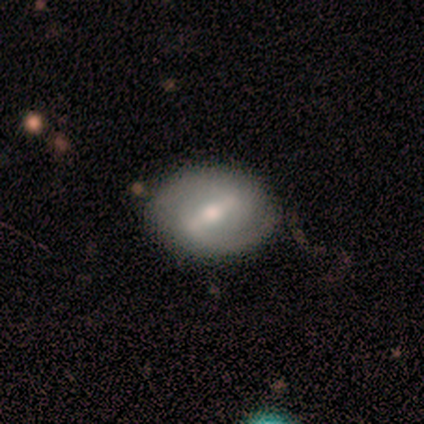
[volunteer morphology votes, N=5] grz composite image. It shows a featured or disk galaxy (60%) with a strong bar (67%), 1 (50%, tied with 2) tight (100%) spiral arms (67%) and a moderate central bulge (100%). Merging: none (100%).